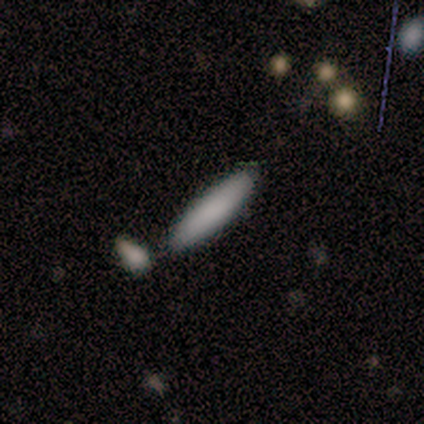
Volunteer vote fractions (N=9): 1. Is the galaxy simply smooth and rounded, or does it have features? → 100% smooth, 0% featured or disk, 0% star or artifact.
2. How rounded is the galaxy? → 100% cigar-shaped, 0% round, 0% in between.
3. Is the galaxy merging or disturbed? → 100% none, 0% minor disturbance, 0% major disturbance, 0% merger.